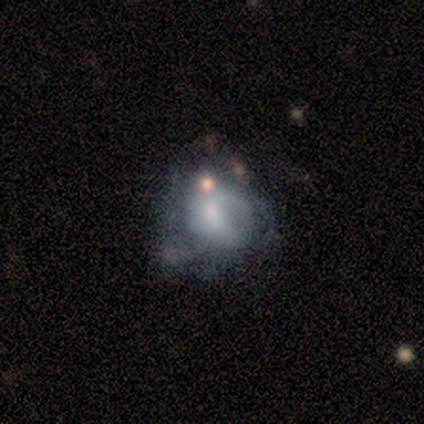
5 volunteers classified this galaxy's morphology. smooth 60%, featured or disk 40%, star or artifact 0%. Down the decision tree: how rounded — round (67%); merging — minor disturbance (40%, tied with major disturbance).